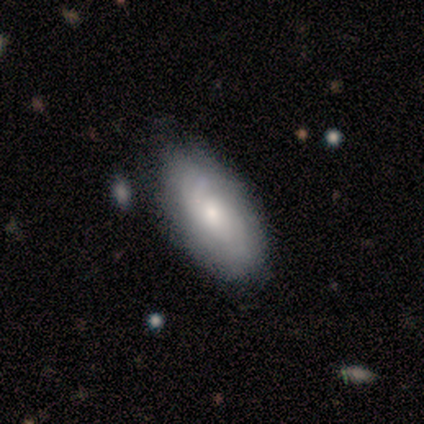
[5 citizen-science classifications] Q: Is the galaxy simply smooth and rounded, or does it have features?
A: smooth — 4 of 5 (80%).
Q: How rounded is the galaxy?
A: in between — 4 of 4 (100%).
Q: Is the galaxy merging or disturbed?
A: none — 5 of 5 (100%).